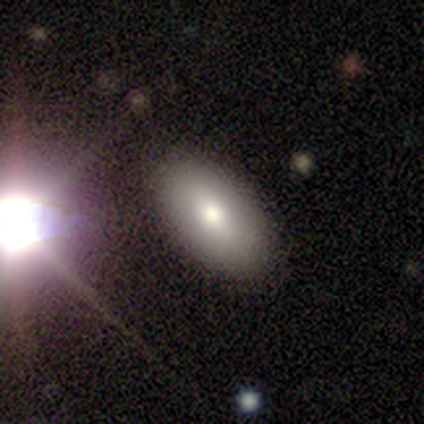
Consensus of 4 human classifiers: Smooth or featured? 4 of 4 (100%) said smooth. How rounded? 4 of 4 (100%) said in between. Merging? 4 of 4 (100%) said none.